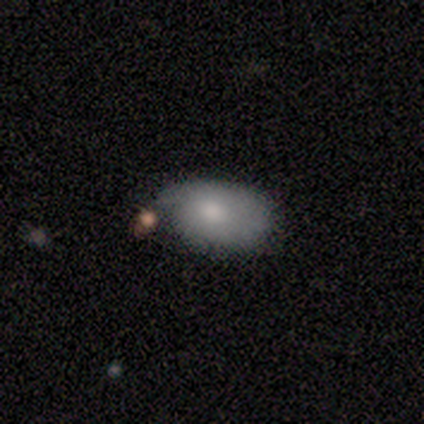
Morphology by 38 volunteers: smooth-or-featured: smooth: 74% | featured or disk: 21% | star or artifact: 5%
  how-rounded: in between: 86% | round: 11% | cigar-shaped: 4%
  merging: minor disturbance: 28% | none: 25% | merger: 11% | major disturbance: 8%